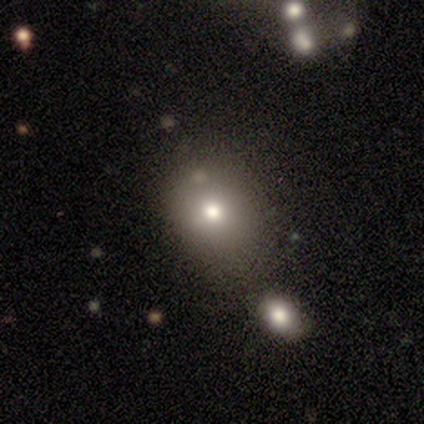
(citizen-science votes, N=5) A smooth galaxy with no disk features (100%) that is in between round and cigar-shaped (80%).

Vote fractions:
- Smooth or featured? smooth: 100% / featured or disk: 0% / star or artifact: 0%
- How rounded? in between: 80% / round: 20% / cigar-shaped: 0%
- Merging? none: 60% / minor disturbance: 20% / merger: 20% / major disturbance: 0%